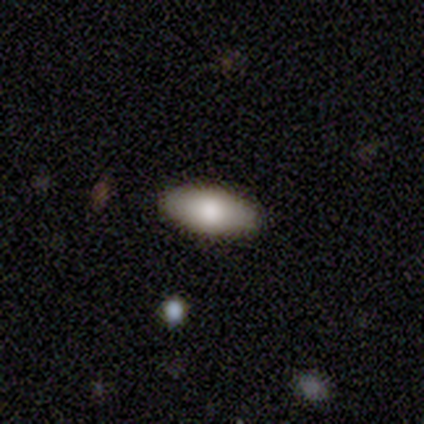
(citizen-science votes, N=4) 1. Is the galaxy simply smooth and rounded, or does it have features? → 100% smooth, 0% featured or disk, 0% star or artifact.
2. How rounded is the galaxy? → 100% in between, 0% round, 0% cigar-shaped.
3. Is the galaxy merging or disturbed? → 100% none, 0% minor disturbance, 0% major disturbance, 0% merger.